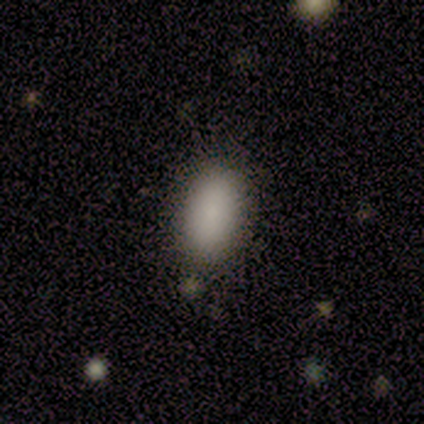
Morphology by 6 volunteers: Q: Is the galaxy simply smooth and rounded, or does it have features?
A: smooth — 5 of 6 (83%).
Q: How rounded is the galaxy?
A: in between — 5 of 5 (100%).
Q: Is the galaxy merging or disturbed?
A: none — 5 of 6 (83%).